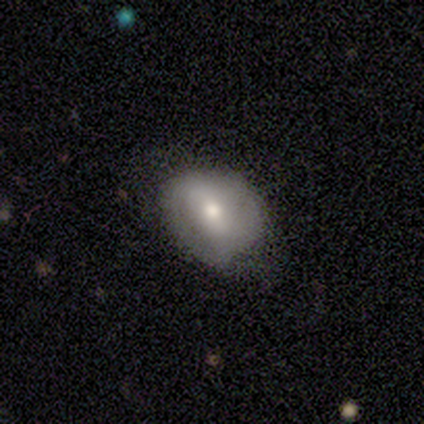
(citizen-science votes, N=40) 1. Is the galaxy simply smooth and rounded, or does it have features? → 55% smooth, 35% featured or disk, 10% star or artifact.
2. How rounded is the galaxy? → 64% in between, 36% round, 0% cigar-shaped.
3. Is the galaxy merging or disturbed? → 56% none, 25% minor disturbance, 6% major disturbance, 0% merger.